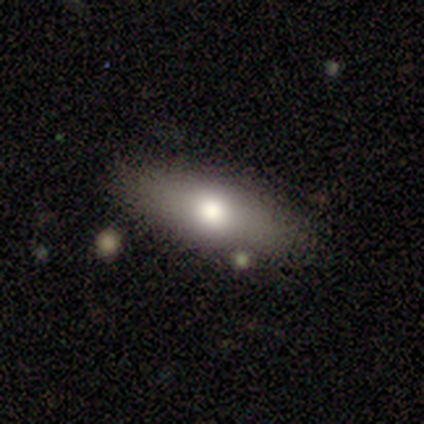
Smooth or featured: smooth — 75% (featured or disk — 23%)
How rounded: in between — 92% (cigar-shaped — 8%)
Merging: none — 85% (merger — 8%)